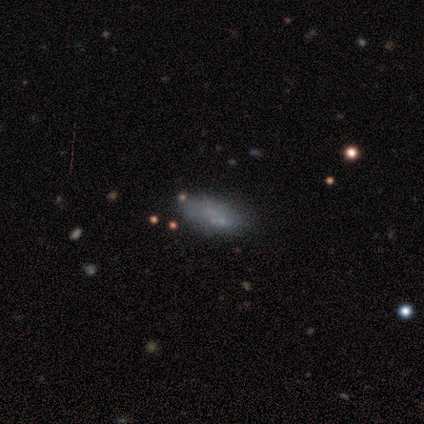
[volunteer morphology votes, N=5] Smooth or featured?
  - featured or disk: 60% *
  - smooth: 20%
  - star or artifact: 20%
Edge-on disk?
  - no: 100% *
  - yes: 0%
Bar?
  - no: 100% *
  - strong: 0%
  - weak: 0%
Spiral arms?
  - no: 100% *
  - yes: 0%
Bulge size?
  - none: 100% *
  - dominant: 0%
  - large: 0%
  - moderate: 0%
  - small: 0%
Merging?
  - none: 75% *
  - minor disturbance: 25%
  - major disturbance: 0%
  - merger: 0%